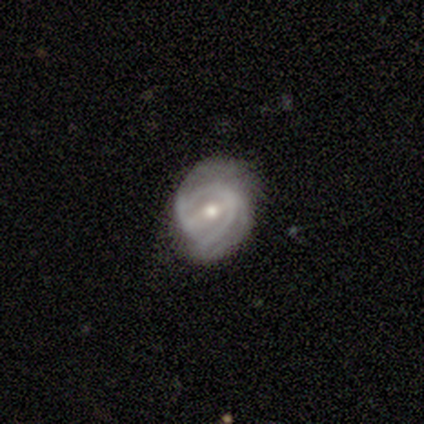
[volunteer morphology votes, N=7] Smooth or featured: featured or disk — 100%
Edge-on disk: no — 100%
Bar: weak — 57% (no — 29%)
Spiral arms: yes — 71% (no — 29%)
Spiral winding: medium — 80% (tight — 20%)
Spiral arm count: 2 — 80% (can't tell — 20%)
Bulge size: moderate — 71% (small — 29%)
Merging: none — 86% (major disturbance — 14%)